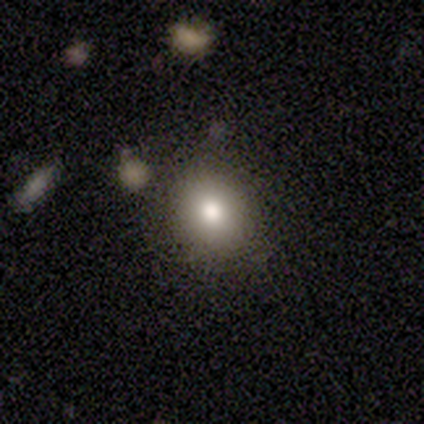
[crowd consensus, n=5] This is clearly a smooth galaxy (100%). How rounded: likely in between (60%). Merging: clearly none (80%).